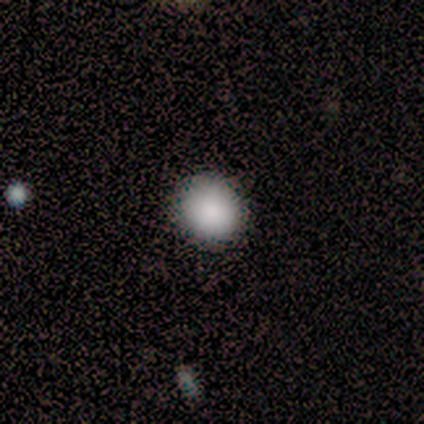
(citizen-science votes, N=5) Smooth or featured: smooth — 100%
How rounded: round — 100%
Merging: none — 80% (minor disturbance — 20%)